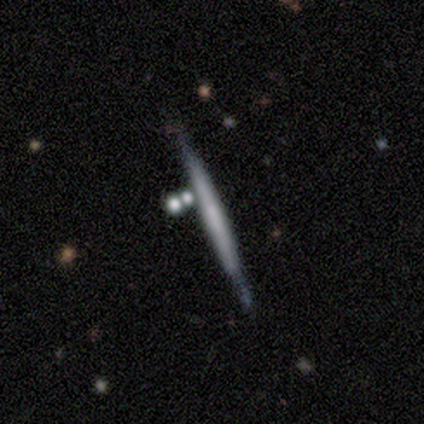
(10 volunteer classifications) featured or disk 70%, smooth 30%, star or artifact 0%. Down the decision tree: edge-on disk — yes (100%); edge-on bulge — none (71%); merging — none (90%).